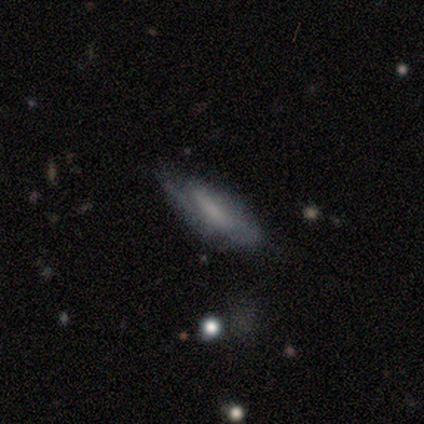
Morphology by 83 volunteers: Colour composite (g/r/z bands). It shows a smooth galaxy with no disk features (53%) that is in between round and cigar-shaped (57%). Merging: none (69%).